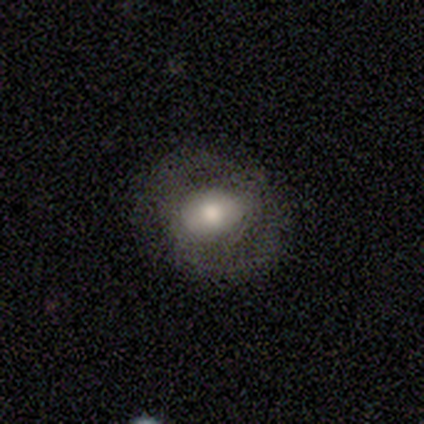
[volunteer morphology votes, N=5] Smooth or featured? featured or disk (60%)
Edge-on disk? no (100%)
Bar? weak (67%)
Spiral arms? no (100%)
Bulge size? moderate (67%)
Merging? none (60%)